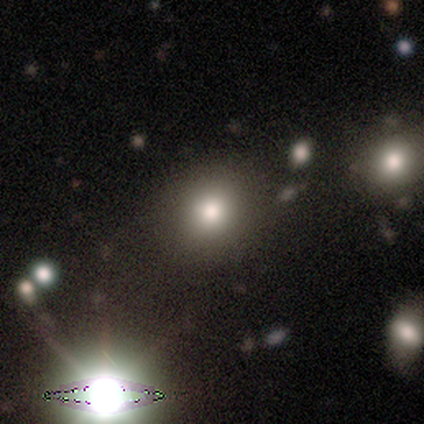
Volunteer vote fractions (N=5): Smooth or featured?
  - smooth: 60% *
  - star or artifact: 40%
  - featured or disk: 0%
How rounded?
  - round: 100% *
  - in between: 0%
  - cigar-shaped: 0%
Merging?
  - minor disturbance: 67% *
  - merger: 33%
  - none: 0%
  - major disturbance: 0%